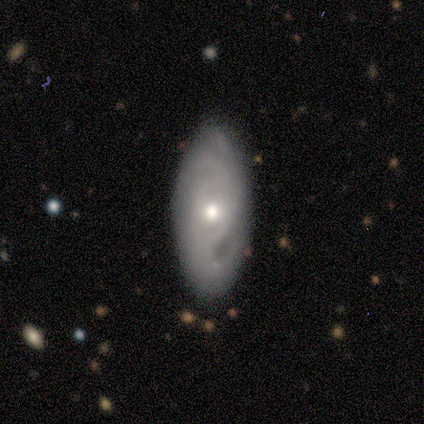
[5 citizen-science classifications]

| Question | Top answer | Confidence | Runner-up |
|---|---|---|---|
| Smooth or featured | featured or disk | 60% | smooth (20%) |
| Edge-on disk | no | 67% | yes (33%) |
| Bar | weak | 50% | tied: no (50%) |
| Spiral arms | yes | 100% | — |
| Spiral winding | medium | 100% | — |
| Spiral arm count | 3 | 50% | tied: can't tell (50%) |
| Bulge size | moderate | 50% | tied: small (50%) |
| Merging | none | 100% | — |